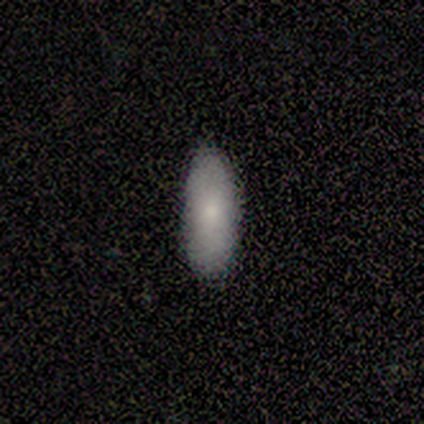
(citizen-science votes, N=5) Smooth or featured? smooth (80%)
How rounded? in between (100%)
Merging? none (100%)